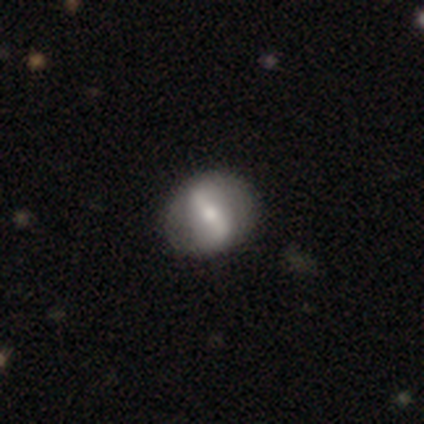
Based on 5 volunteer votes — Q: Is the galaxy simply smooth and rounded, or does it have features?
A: featured or disk — 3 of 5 (60%).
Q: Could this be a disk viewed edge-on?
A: no — 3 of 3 (100%).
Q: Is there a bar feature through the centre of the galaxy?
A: strong — 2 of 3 (67%).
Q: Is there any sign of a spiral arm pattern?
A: no — 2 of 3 (67%).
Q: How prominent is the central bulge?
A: large — 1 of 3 (33%, tied with moderate and small).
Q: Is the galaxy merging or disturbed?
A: none — 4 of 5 (80%).